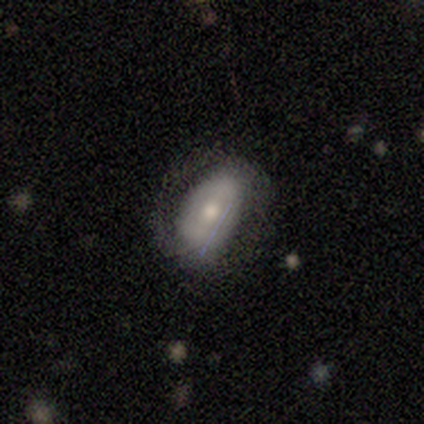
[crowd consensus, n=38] Smooth or featured: smooth — 55% (featured or disk — 39%)
How rounded: in between — 76% (round — 19%)
Merging: none — 69% (major disturbance — 22%)